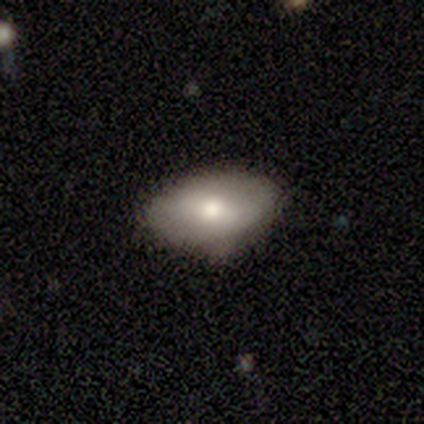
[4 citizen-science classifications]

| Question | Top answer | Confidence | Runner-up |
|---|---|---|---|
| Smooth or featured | smooth | 100% | — |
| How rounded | in between | 100% | — |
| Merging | none | 100% | — |